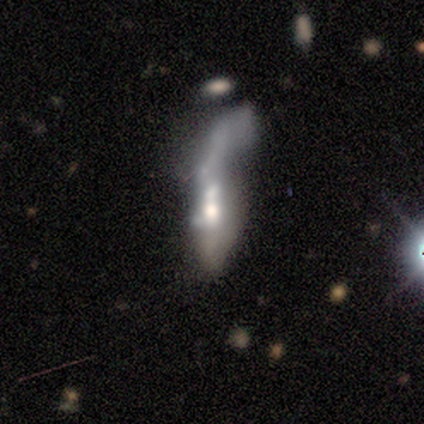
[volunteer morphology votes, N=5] smooth-or-featured: smooth: 60% | featured or disk: 40% | star or artifact: 0%
  how-rounded: cigar-shaped: 100% | round: 0% | in between: 0%
  merging: merger: 60% | major disturbance: 40% | none: 0% | minor disturbance: 0%